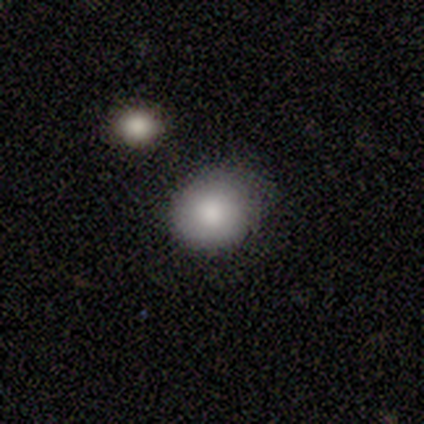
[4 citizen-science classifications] Q: Smooth or featured?
A: smooth (75%); runner-up: star or artifact (25%)
Q: How rounded?
A: round (67%); runner-up: in between (33%)
Q: Merging?
A: none (100%)